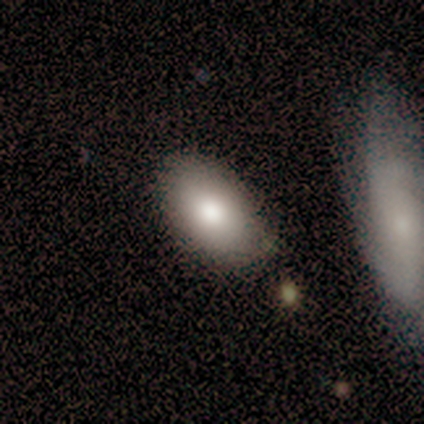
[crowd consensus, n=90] A smooth galaxy with no disk features (79%) that is in between round and cigar-shaped (92%). Merging: none (76%).